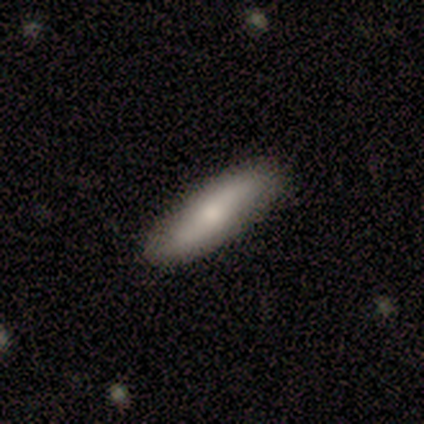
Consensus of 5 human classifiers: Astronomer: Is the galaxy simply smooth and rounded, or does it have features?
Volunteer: smooth — 80%.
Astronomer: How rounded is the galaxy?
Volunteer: in between — 50%, tied with cigar-shaped at 50%.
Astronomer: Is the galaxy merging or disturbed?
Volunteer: none — 100%.